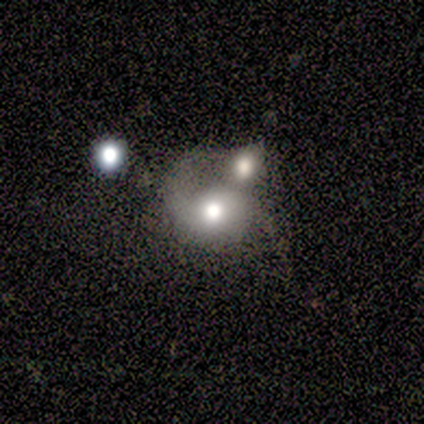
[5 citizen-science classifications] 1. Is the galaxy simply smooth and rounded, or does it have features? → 60% featured or disk, 20% smooth, 20% star or artifact.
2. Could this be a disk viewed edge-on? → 100% no, 0% yes.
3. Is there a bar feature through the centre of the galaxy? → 100% no, 0% strong, 0% weak.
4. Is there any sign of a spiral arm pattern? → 67% yes, 33% no.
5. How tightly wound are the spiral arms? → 50% medium (tied), 50% loose (tied), 0% tight.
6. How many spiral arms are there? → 100% 2, 0% 1, 0% 3, 0% 4, 0% more than 4, 0% can't tell.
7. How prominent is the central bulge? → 67% moderate, 33% large, 0% dominant, 0% small, 0% none.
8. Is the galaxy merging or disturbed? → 75% merger, 25% major disturbance, 0% none, 0% minor disturbance.